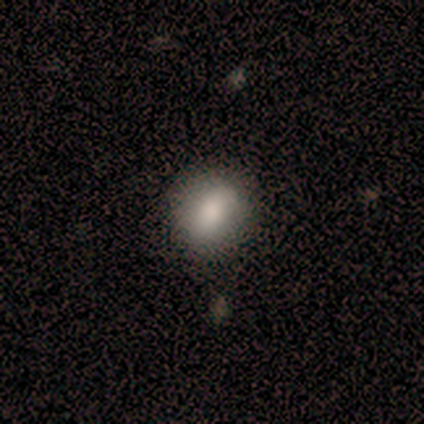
smooth_or_featured: smooth (p=0.80) [alt: featured or disk p=0.20]
how_rounded: round (p=0.75) [alt: in between p=0.25]
merging: minor disturbance (p=0.80) [alt: none p=0.20]